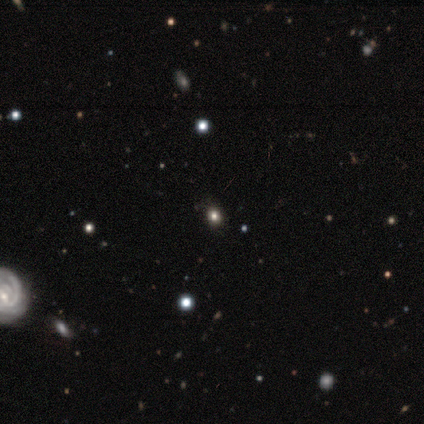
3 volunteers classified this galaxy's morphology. Volunteers were most divided on "how rounded": round: 67%, in between: 33%, cigar-shaped: 0%. More confident: smooth or featured — smooth (100%); merging — none (67%).